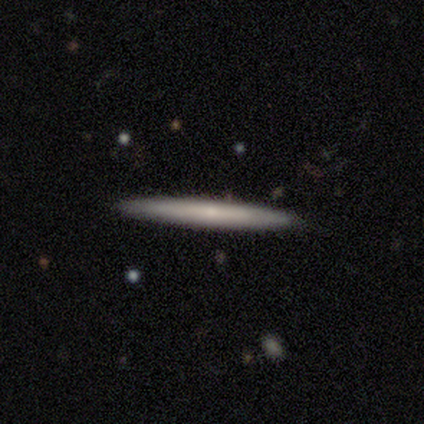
Q: Smooth or featured?
A: featured or disk (51%); runner-up: smooth (44%)
Q: Edge-on disk?
A: yes (80%); runner-up: no (20%)
Q: Edge-on bulge?
A: none (69%); runner-up: rounded (31%)
Q: Merging?
A: none (89%); runner-up: minor disturbance (8%)